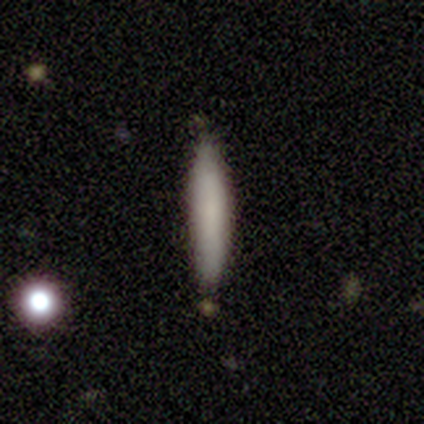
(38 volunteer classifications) Volunteers were most divided on "smooth or featured": smooth: 84%, featured or disk: 16%, star or artifact: 0%. More confident: how rounded — cigar-shaped (100%); merging — none (87%).